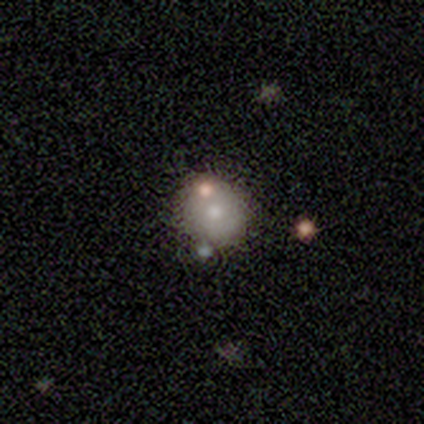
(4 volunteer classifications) smooth-or-featured: smooth: 100% | featured or disk: 0% | star or artifact: 0%
  how-rounded: round: 50% (tied) | in between: 50% (tied) | cigar-shaped: 0%
  merging: none: 50% | minor disturbance: 25% | major disturbance: 25% | merger: 0%